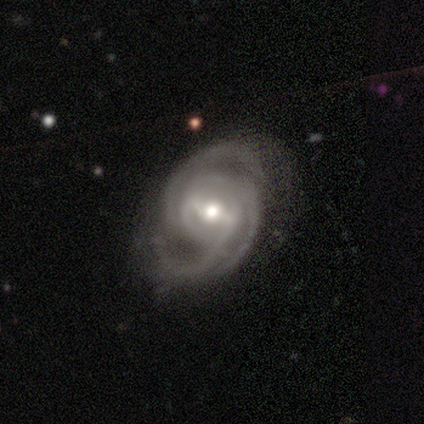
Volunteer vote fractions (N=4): Smooth or featured: featured or disk — 100%
Edge-on disk: no — 100%
Bar: weak — 100%
Spiral arms: yes — 100%
Spiral winding: tight — 50% (tied with medium — 50%)
Spiral arm count: 3 — 100%
Bulge size: moderate — 75% (small — 25%)
Merging: none — 75% (minor disturbance — 25%)